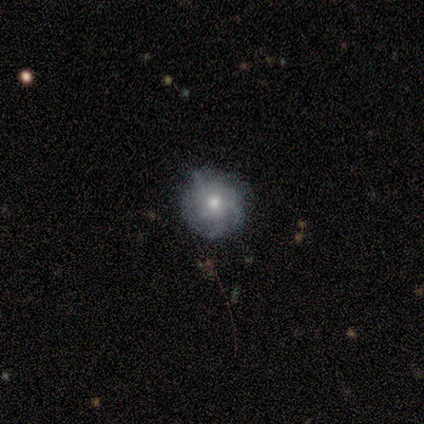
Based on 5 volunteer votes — A featured or disk galaxy (60%) with no bar (100%), tight (33%, tied with medium and loose) spiral arms (100%) and a moderate central bulge (67%). Merging: none (60%).